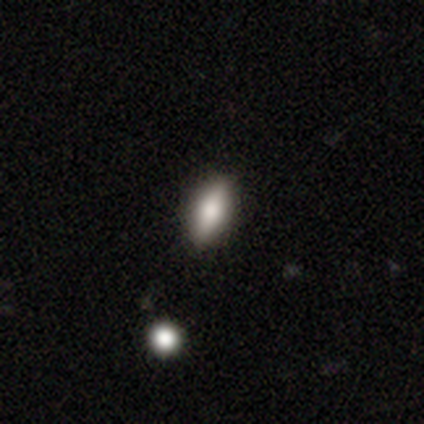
Smooth or featured?
  - smooth: 100% *
  - featured or disk: 0%
  - star or artifact: 0%
How rounded?
  - in between: 100% *
  - round: 0%
  - cigar-shaped: 0%
Merging?
  - none: 80% *
  - major disturbance: 20%
  - minor disturbance: 0%
  - merger: 0%